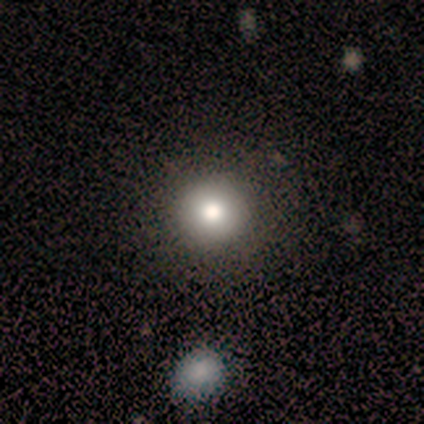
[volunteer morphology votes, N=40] Volunteers were most divided on "smooth or featured": smooth: 68%, star or artifact: 25%, featured or disk: 8%. More confident: merging — none (97%); how rounded — round (96%).